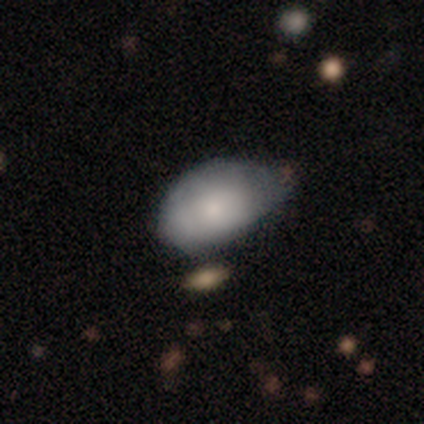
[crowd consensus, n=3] Smooth or featured? 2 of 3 (67%) said smooth. How rounded? 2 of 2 (100%) said in between. Merging? 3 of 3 (100%) said minor disturbance.